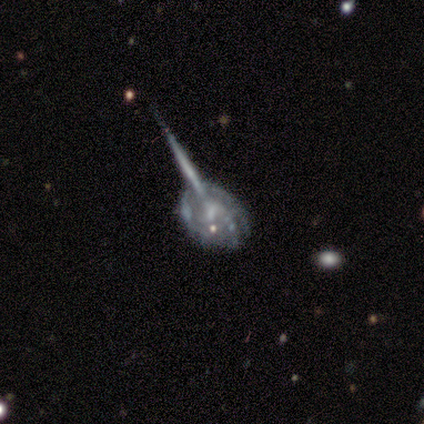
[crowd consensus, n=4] Smooth or featured: featured or disk — 75% (smooth — 25%)
Edge-on disk: no — 100%
Bar: strong — 33% (tied with weak — 33%; no — 33%)
Spiral arms: yes — 67% (no — 33%)
Spiral winding: tight — 50% (tied with medium — 50%)
Spiral arm count: 2 — 50% (tied with can't tell — 50%)
Bulge size: moderate — 33% (tied with small — 33%; none — 33%)
Merging: none — 75% (major disturbance — 25%)